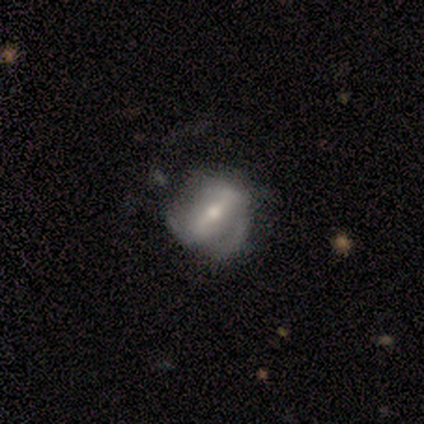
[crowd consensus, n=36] Smooth or featured? featured or disk (78%)
Edge-on disk? no (89%)
Bar? strong (68%)
Spiral arms? yes (64%)
Spiral winding? medium (50%)
Spiral arm count? 2 (50%)
Bulge size? moderate (60%)
Merging? none (49%)